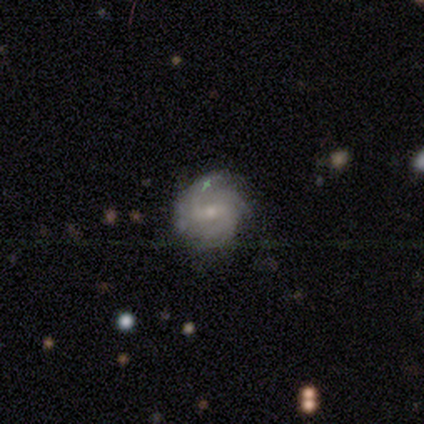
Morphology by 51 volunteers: Smooth or featured?
  - featured or disk: 76% *
  - smooth: 16%
  - star or artifact: 8%
Edge-on disk?
  - no: 95% *
  - yes: 5%
Bar?
  - weak: 49% *
  - no: 27%
  - strong: 24%
Spiral arms?
  - yes: 97% *
  - no: 3%
Spiral winding?
  - tight: 67% *
  - medium: 28%
  - loose: 6%
Spiral arm count?
  - 4: 28% *
  - can't tell: 25%
  - 3: 22%
  - 2: 17%
  - more than 4: 6%
  - 1: 3%
Bulge size?
  - small: 59% *
  - moderate: 38%
  - none: 3%
  - dominant: 0%
  - large: 0%
Merging?
  - none: 70% *
  - minor disturbance: 13%
  - major disturbance: 13%
  - merger: 4%